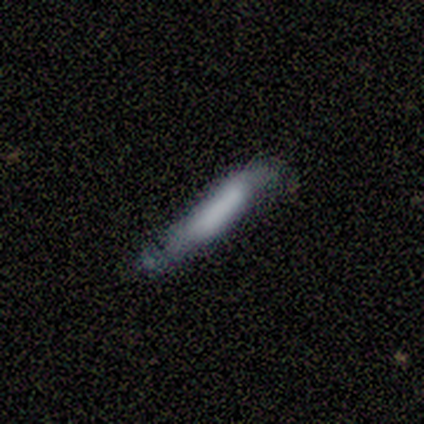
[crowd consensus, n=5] Morphology: type=featured or disk (60%); edge-on=yes (100%); edge-on bulge=none (67%); merging=minor disturbance (60%).